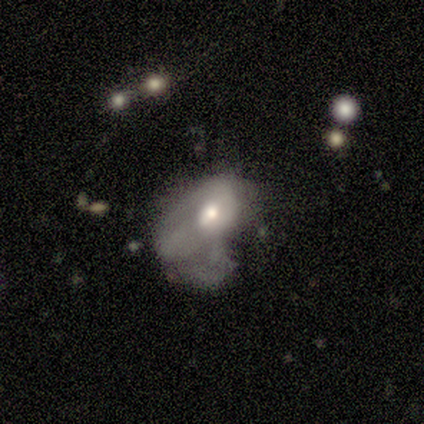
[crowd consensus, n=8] Overall: smooth (62%; featured or disk 38%). How rounded: in between (60%; round 40%). Merging: major disturbance (75%).